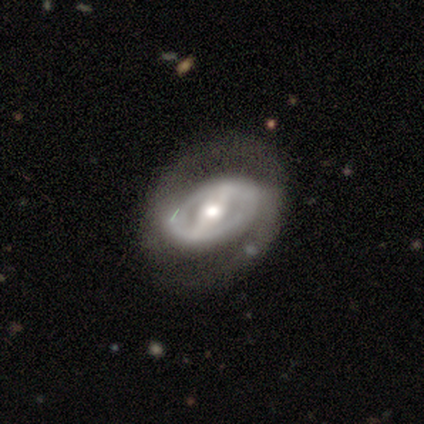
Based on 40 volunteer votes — This appears to be a featured or disk galaxy (92%) with a strong bar (78%), 2 (76%) tight (52%) spiral arms (78%) and a moderate central bulge (84%). Merging: none (56%).